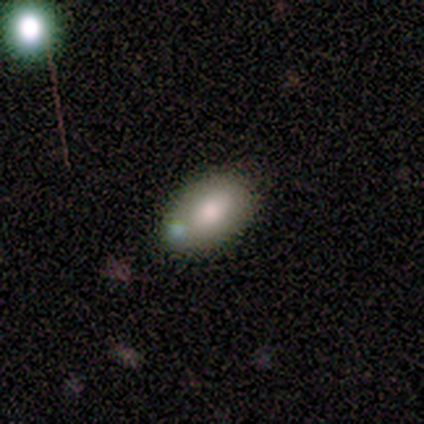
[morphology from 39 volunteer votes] type=smooth (59%); roundness=in between (87%); merging=none (46%).